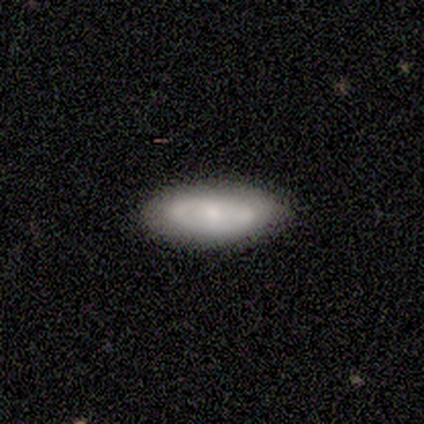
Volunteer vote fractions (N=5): smooth 80%, featured or disk 20%, star or artifact 0%. Down the decision tree: how rounded — in between (100%); merging — none (80%).